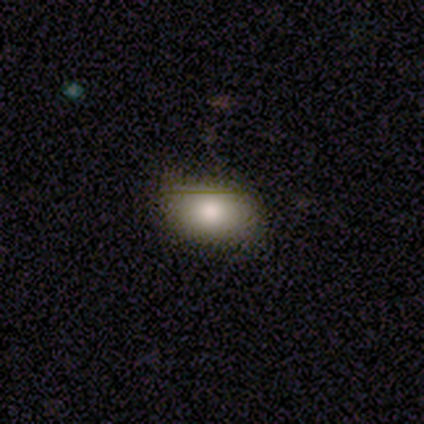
This appears to be a smooth galaxy with no disk features (74%) that is in between round and cigar-shaped (89%). Merging: none (61%).